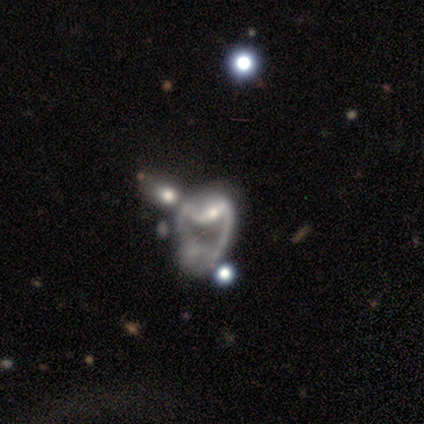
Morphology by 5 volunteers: featured or disk 80%, smooth 20%, star or artifact 0%. Down the decision tree: edge-on disk — no (100%); bar — strong (75%); spiral arms — yes (50%, tied with no); spiral arm count — 2 (100%); spiral winding — medium (50%, tied with loose); bulge size — small (75%); merging — major disturbance (40%, tied with merger).